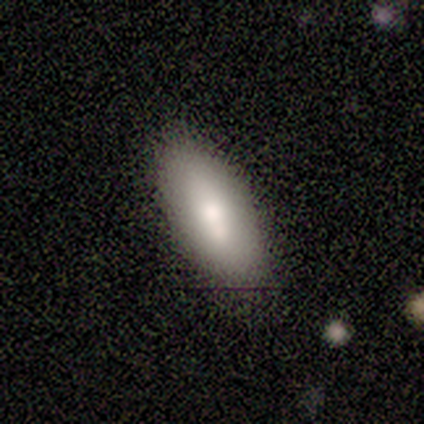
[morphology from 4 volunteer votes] Overall: smooth (50%, tied with featured or disk). How rounded: in between (100%). Merging: none (75%).